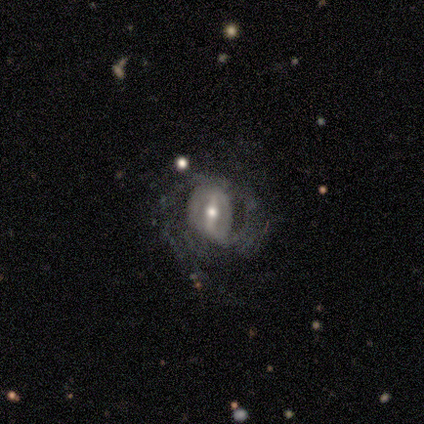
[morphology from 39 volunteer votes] smooth-or-featured: featured or disk: 85% | smooth: 10% | star or artifact: 5%
  disk-edge-on: no: 100% | yes: 0%
    bar: strong: 64% | weak: 33% | no: 3%
    has-spiral-arms: yes: 82% | no: 18%
      spiral-winding: loose: 41% | medium: 33% | tight: 26%
      spiral-arm-count: 2: 44% | can't tell: 30% | 1: 19% | 3: 4% | more than 4: 4% | 4: 0%
    bulge-size: moderate: 76% | small: 18% | large: 6% | dominant: 0% | none: 0%
  merging: none: 46% | major disturbance: 27% | minor disturbance: 22% | merger: 5%